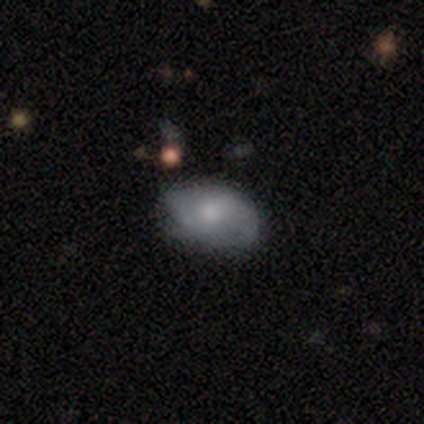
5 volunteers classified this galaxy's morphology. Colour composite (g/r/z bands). It shows a smooth galaxy with no disk features (60%) that is in between round and cigar-shaped (100%). Merging: none (60%).